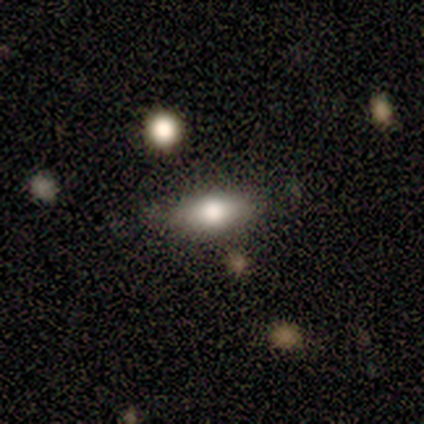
This is likely a smooth galaxy (60%). How rounded: clearly in between (100%). Merging: likely none (75%).